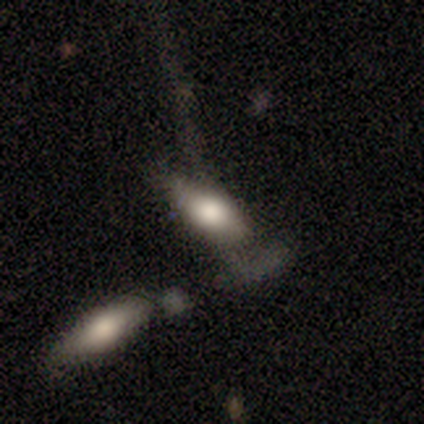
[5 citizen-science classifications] A smooth galaxy with no disk features (60%) that is in between round and cigar-shaped (100%). Merging: merger (50%).